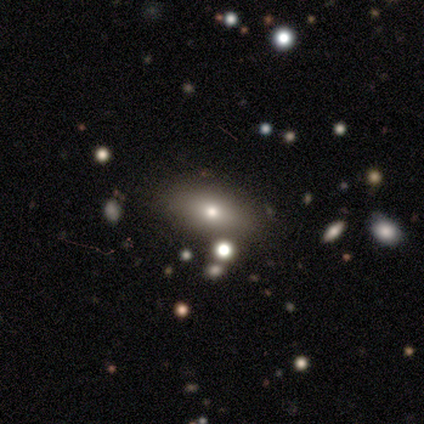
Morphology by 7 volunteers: Smooth or featured? smooth (86%)
How rounded? in between (83%)
Merging? none (100%)